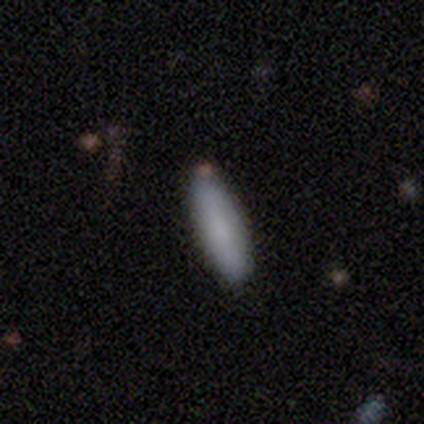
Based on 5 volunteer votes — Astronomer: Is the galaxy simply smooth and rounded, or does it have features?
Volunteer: smooth — 100%.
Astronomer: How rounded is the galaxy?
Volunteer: cigar-shaped — 80%.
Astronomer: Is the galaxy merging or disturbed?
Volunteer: none — 100%.